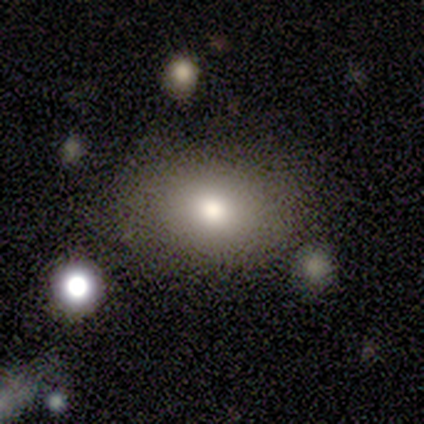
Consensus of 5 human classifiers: This is marginally a smooth galaxy (40%, tied with star or artifact). How rounded: possibly round (50%, tied with in between). Merging: clearly none (100%).